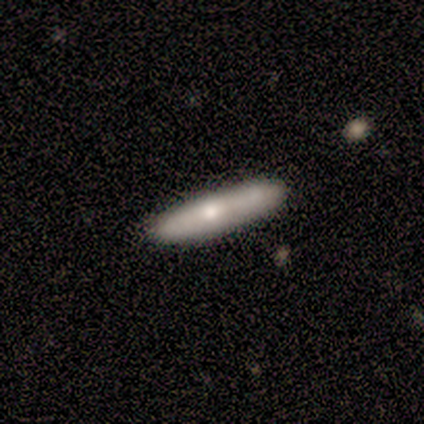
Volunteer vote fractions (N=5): Smooth or featured? 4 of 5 (80%) said smooth. How rounded? 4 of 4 (100%) said cigar-shaped. Merging? 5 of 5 (100%) said none.